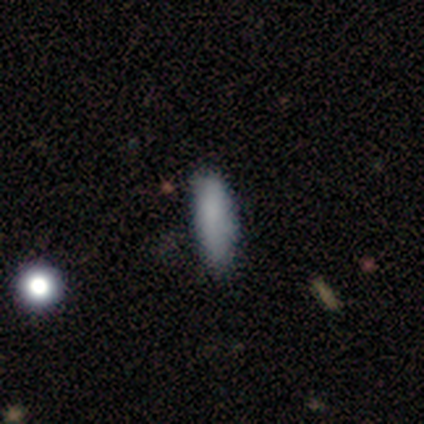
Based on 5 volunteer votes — Volunteers were most divided on "how rounded" (2-way tie): in between: 50%, cigar-shaped: 50%, round: 0%. More confident: smooth or featured — smooth (80%); merging — major disturbance (60%).